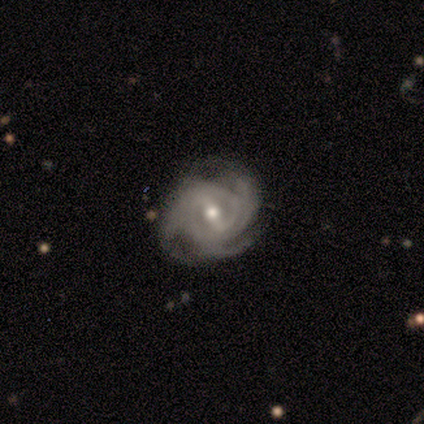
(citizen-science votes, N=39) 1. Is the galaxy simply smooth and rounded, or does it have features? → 95% featured or disk, 5% star or artifact, 0% smooth.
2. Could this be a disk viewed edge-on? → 100% no, 0% yes.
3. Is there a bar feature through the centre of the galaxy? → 46% strong, 43% weak, 11% no.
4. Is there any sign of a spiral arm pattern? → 97% yes, 3% no.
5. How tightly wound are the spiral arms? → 56% tight, 39% medium, 6% loose.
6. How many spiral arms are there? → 56% 3, 14% 2, 14% 4, 14% can't tell, 3% more than 4, 0% 1.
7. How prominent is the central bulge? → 59% moderate, 35% small, 5% large, 0% dominant, 0% none.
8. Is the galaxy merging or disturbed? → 86% none, 14% minor disturbance, 0% major disturbance, 0% merger.